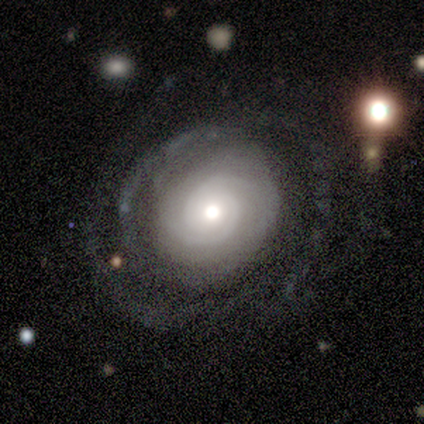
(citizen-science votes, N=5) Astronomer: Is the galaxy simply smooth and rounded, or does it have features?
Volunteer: featured or disk — 80%.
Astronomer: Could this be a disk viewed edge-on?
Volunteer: no — 100%.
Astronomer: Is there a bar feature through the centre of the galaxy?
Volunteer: weak — 50%, tied with no at 50%.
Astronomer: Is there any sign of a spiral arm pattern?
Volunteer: yes — 100%.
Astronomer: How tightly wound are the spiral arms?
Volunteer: tight — 75%.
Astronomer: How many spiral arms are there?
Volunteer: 2 — 50%.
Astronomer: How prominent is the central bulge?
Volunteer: moderate — 50%, tied with small at 50%.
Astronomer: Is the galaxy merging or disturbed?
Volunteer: none — 40%, tied with minor disturbance at 40%.